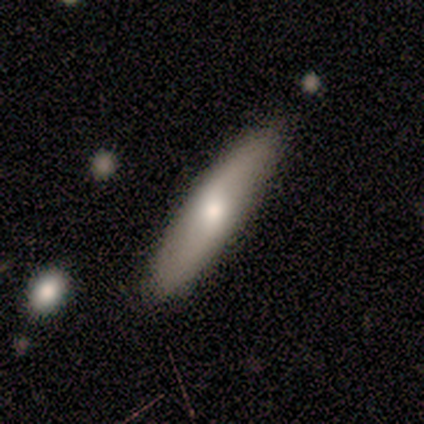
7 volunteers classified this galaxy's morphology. A smooth galaxy with no disk features (71%) that is cigar-shaped (60%). Merging: none (57%).